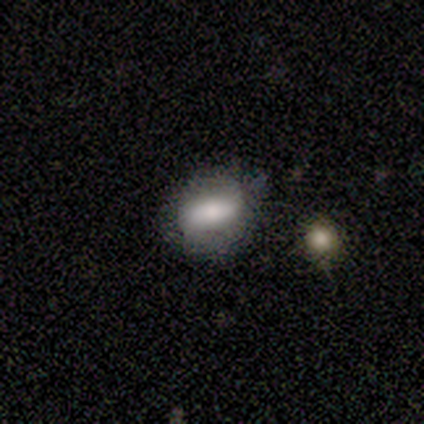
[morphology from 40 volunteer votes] A smooth galaxy with no disk features (78%) that is in between round and cigar-shaped (81%). Merging: none (62%).